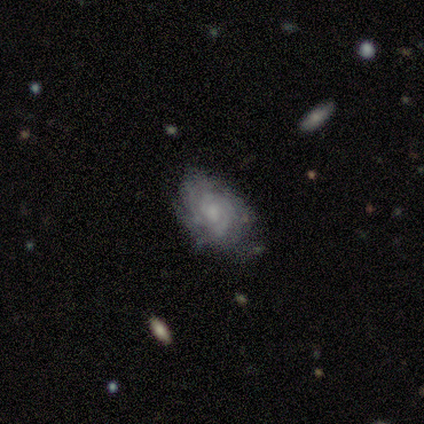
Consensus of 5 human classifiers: A featured or disk galaxy (80%) with a weak bar (75%), 3 (25%, tied with 4, more than 4 and can't tell) tight (75%) spiral arms (100%) and a moderate central bulge (75%).

Vote fractions:
- Smooth or featured? featured or disk: 80% / smooth: 20% / star or artifact: 0%
- Edge-on disk? no: 100% / yes: 0%
- Bar? weak: 75% / no: 25% / strong: 0%
- Spiral arms? yes: 100% / no: 0%
- Spiral winding? tight: 75% / medium: 25% / loose: 0%
- Spiral arm count? 3: 25% (tied) / 4: 25% (tied) / more than 4: 25% (tied) / can't tell: 25% (tied) / 1: 0% / 2: 0%
- Bulge size? moderate: 75% / small: 25% / dominant: 0% / large: 0% / none: 0%
- Merging? none: 60% / minor disturbance: 20% / major disturbance: 20% / merger: 0%